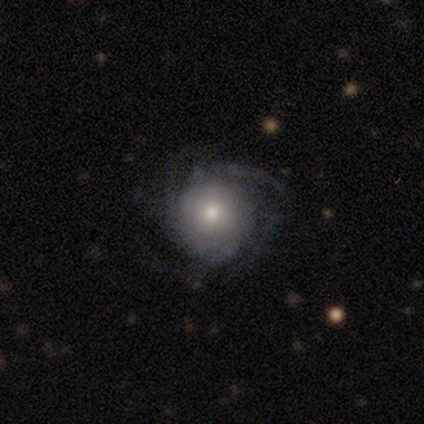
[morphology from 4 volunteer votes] Volunteers were most divided on "spiral arm count" (4-way tie): 2: 25%, 3: 25%, more than 4: 25%, can't tell: 25%, 1: 0%, 4: 0%; "bulge size" (2-way tie): large: 50%, moderate: 50%, dominant: 0%, small: 0%, none: 0%. More confident: smooth or featured — featured or disk (100%); edge-on disk — no (100%); bar — no (100%); spiral arms — yes (100%); merging — none (100%); spiral winding — tight (50%).